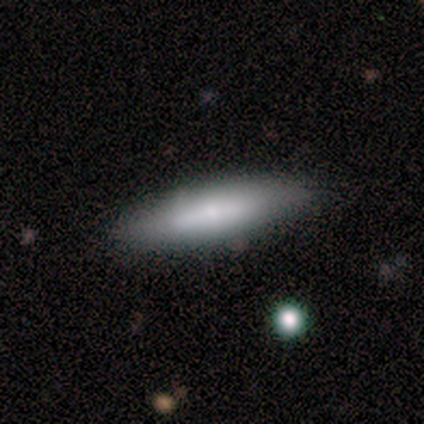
smooth_or_featured: smooth (p=0.60) [alt: featured or disk p=0.40]
how_rounded: cigar-shaped (p=0.67) [alt: in between p=0.33]
merging: none (p=0.60) [alt: minor disturbance p=0.40]